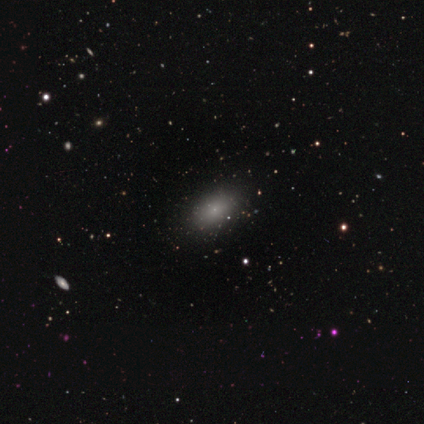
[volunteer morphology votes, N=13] type=smooth (62%); roundness=in between (100%); merging=none (80%).